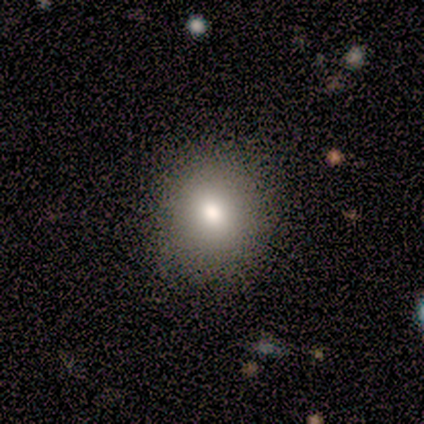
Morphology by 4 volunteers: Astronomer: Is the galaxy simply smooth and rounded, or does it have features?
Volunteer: smooth — 75%.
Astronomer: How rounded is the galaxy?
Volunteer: round — 67%.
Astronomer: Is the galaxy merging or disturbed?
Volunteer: none — 67%.